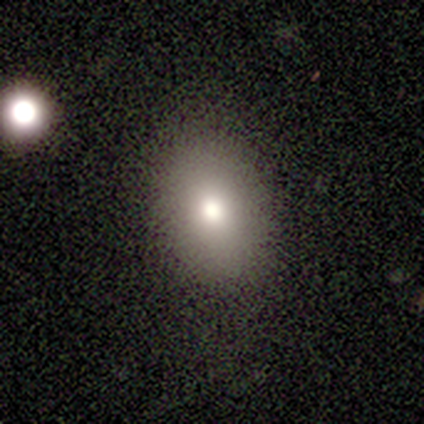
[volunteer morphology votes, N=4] Smooth or featured? smooth (75%)
How rounded? in between (67%)
Merging? minor disturbance (75%)